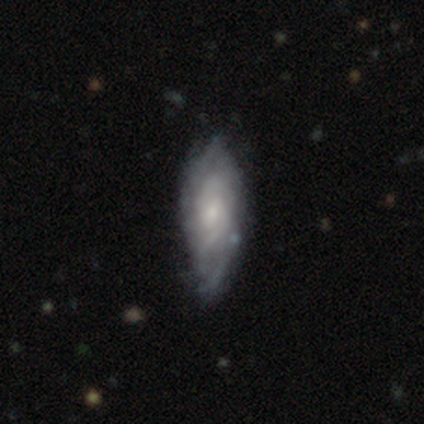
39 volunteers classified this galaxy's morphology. Smooth or featured? featured or disk (82%)
Edge-on disk? no (97%)
Bar? weak (52%)
Spiral arms? yes (97%)
Spiral winding? tight (63%)
Spiral arm count? can't tell (63%)
Bulge size? small (65%)
Merging? none (55%)